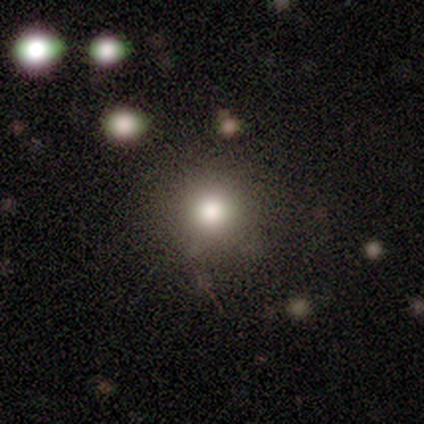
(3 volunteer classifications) Q: Smooth or featured?
A: smooth (67%); runner-up: star or artifact (33%)
Q: How rounded?
A: round (100%)
Q: Merging?
A: none (100%)